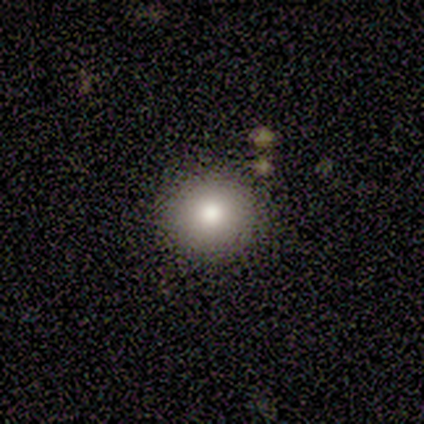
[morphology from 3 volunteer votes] Smooth or featured: smooth — 100%
How rounded: round — 100%
Merging: none — 100%